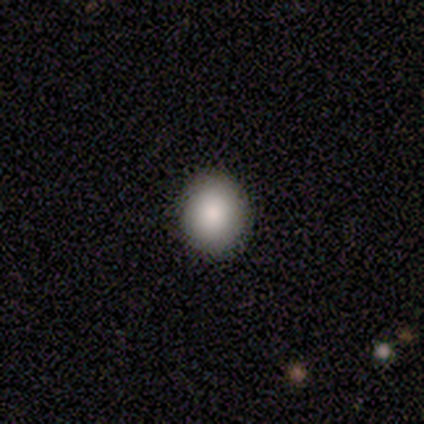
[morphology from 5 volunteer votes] Smooth or featured?
  - smooth: 80% *
  - featured or disk: 20%
  - star or artifact: 0%
How rounded?
  - round: 75% *
  - in between: 25%
  - cigar-shaped: 0%
Merging?
  - none: 100% *
  - minor disturbance: 0%
  - major disturbance: 0%
  - merger: 0%